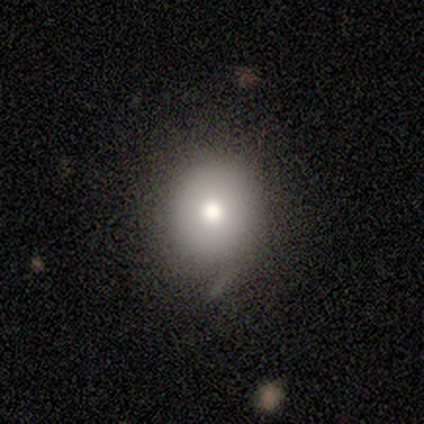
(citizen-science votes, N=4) Volunteers were most divided on "smooth or featured" (2-way tie): smooth: 50%, featured or disk: 50%, star or artifact: 0%. More confident: how rounded — round (100%); merging — none (75%).